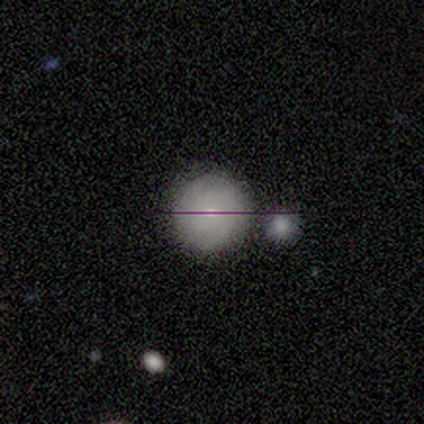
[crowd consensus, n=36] Q: Smooth or featured?
A: smooth (53%); runner-up: featured or disk (39%)
Q: How rounded?
A: round (95%); runner-up: in between (5%)
Q: Merging?
A: merger (48%); runner-up: none (3%)